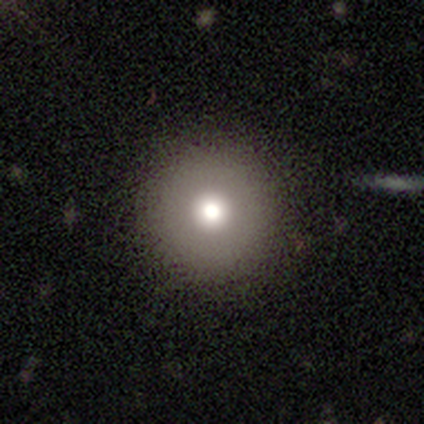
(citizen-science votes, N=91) A smooth galaxy with no disk features (68%) that is round (98%). Merging: none (89%).